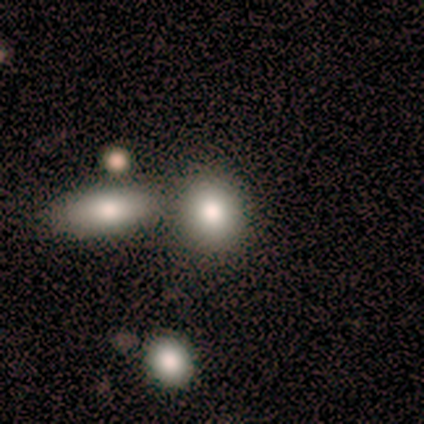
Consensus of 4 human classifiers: smooth 100%, featured or disk 0%, star or artifact 0%. Down the decision tree: how rounded — round (75%); merging — none (75%).